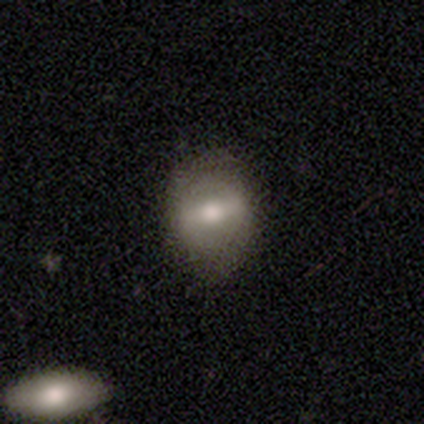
Q: Smooth or featured?
A: smooth (67%); runner-up: featured or disk (33%)
Q: How rounded?
A: round (50%); tied with: in between (50%)
Q: Merging?
A: none (67%); runner-up: minor disturbance (33%)